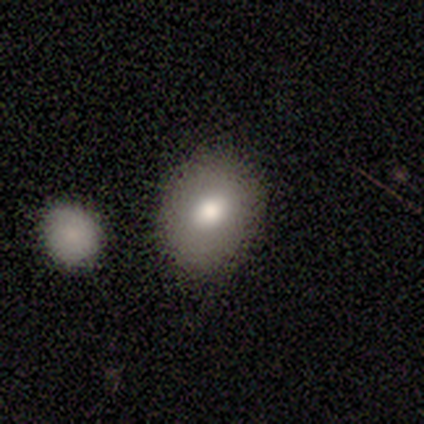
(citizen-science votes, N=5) smooth_or_featured: smooth (p=0.60) [alt: star or artifact p=0.40]
how_rounded: round (p=0.67) [alt: in between p=0.33]
merging: none (p=1.00)